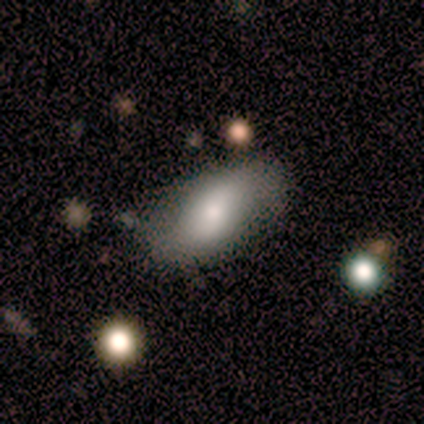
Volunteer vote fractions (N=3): A smooth galaxy with no disk features (67%) that is in between round and cigar-shaped (100%).

Vote fractions:
- Smooth or featured? smooth: 67% / featured or disk: 33% / star or artifact: 0%
- How rounded? in between: 100% / round: 0% / cigar-shaped: 0%
- Merging? minor disturbance: 67% / none: 33% / major disturbance: 0% / merger: 0%